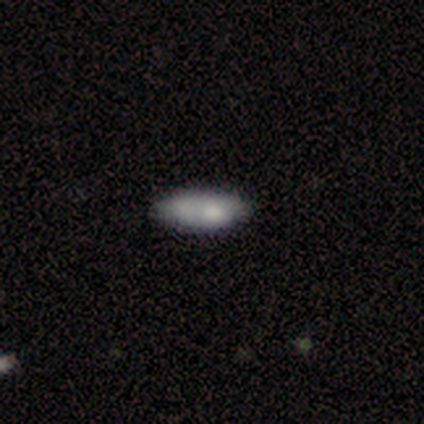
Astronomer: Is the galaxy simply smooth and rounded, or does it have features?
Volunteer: smooth — 80%.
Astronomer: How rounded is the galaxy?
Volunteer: in between — 100%.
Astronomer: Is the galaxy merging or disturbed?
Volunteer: none — 50%, tied with minor disturbance at 50%.